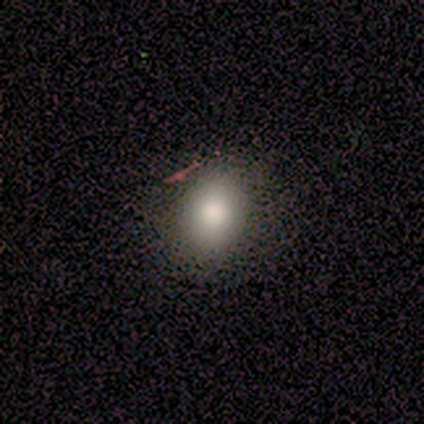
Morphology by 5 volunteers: A smooth galaxy with no disk features (60%) that is round (100%). Merging: none (67%).